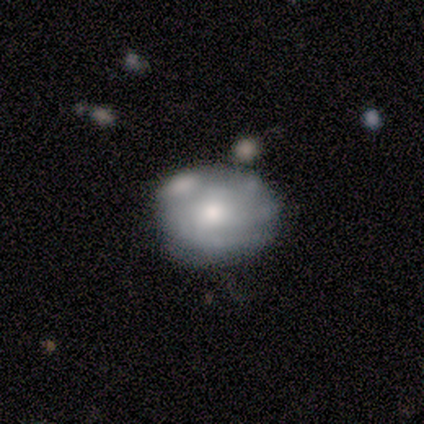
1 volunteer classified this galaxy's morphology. Overall: smooth (100%). How rounded: round (100%). Merging: none (100%).